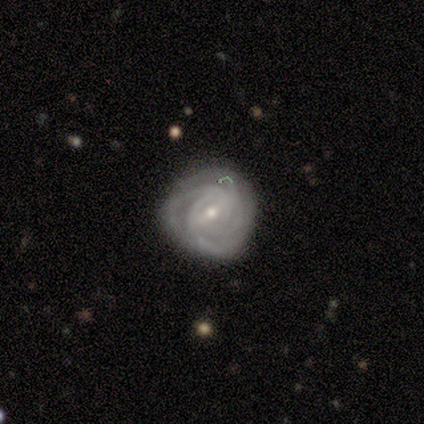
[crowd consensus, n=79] This is likely a featured or disk galaxy (78%). It is clearly not viewed edge-on (100%). Bar: likely weak (68%). Spiral arm pattern: clearly yes (98%). Spiral arm count: marginally can't tell (39%). Spiral winding: likely tight (67%). Central bulge: possibly small (50%). Merging: possibly none (60%).